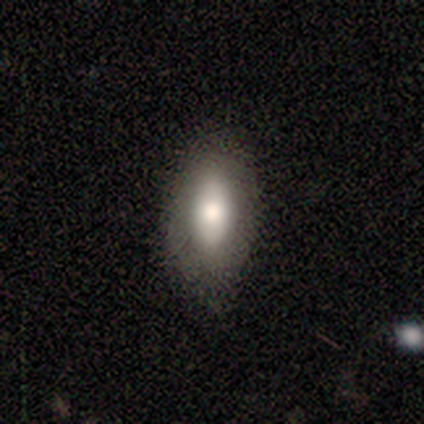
Q: Smooth or featured?
A: smooth (60%); runner-up: featured or disk (40%)
Q: How rounded?
A: in between (100%)
Q: Merging?
A: none (100%)